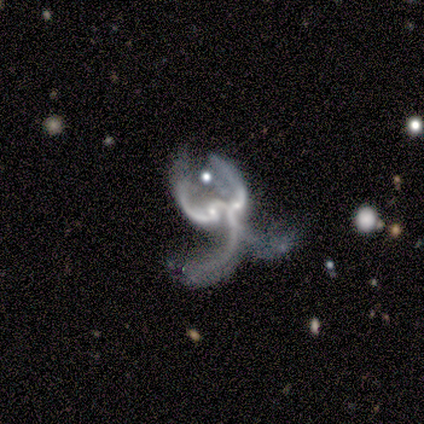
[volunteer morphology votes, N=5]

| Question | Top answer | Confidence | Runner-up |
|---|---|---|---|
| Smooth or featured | featured or disk | 80% | star or artifact (20%) |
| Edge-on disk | no | 100% | — |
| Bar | no | 75% | strong (25%) |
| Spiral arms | yes | 75% | no (25%) |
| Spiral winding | loose | 100% | — |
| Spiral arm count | can't tell | 67% | 2 (33%) |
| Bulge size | none | 50% | moderate (25%) |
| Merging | major disturbance | 50% | tied: merger (50%) |